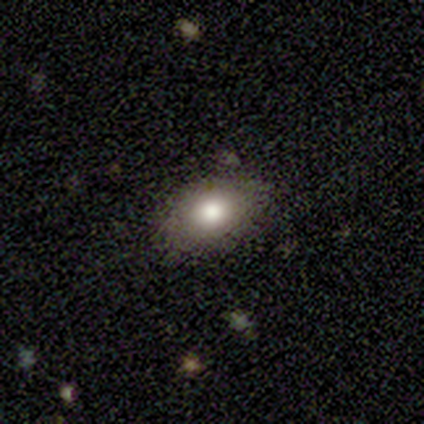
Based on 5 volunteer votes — Volunteers were most divided on "how rounded": in between: 80%, round: 20%, cigar-shaped: 0%. More confident: smooth or featured — smooth (100%); merging — none (100%).